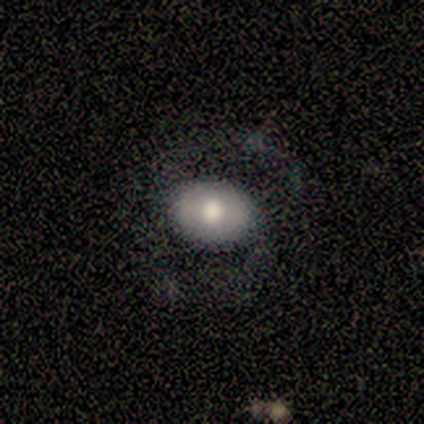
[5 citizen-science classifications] smooth-or-featured: smooth: 80% | featured or disk: 20% | star or artifact: 0%
  how-rounded: in between: 50% | round: 25% | cigar-shaped: 25%
  merging: none: 60% | major disturbance: 20% | merger: 20% | minor disturbance: 0%